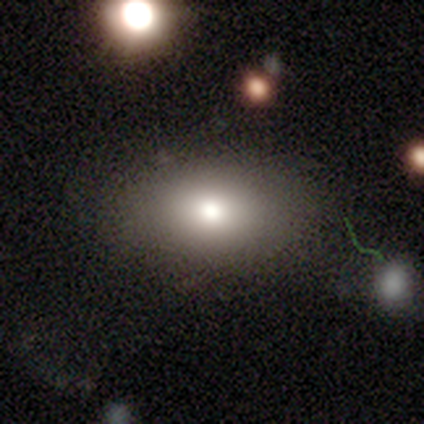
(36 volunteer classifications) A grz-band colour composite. It shows a smooth galaxy with no disk features (72%) that is in between round and cigar-shaped (88%). Merging: none (72%).